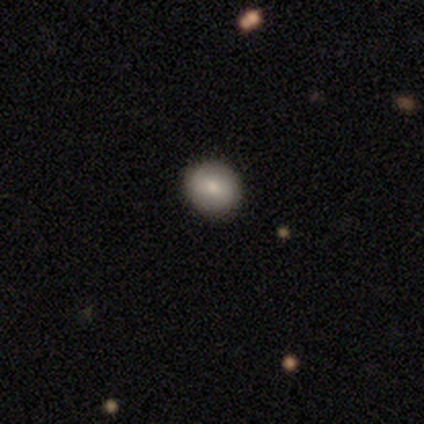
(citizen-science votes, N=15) Smooth or featured? 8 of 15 (53%) said smooth. How rounded? 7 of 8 (88%) said round. Merging? 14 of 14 (100%) said none.